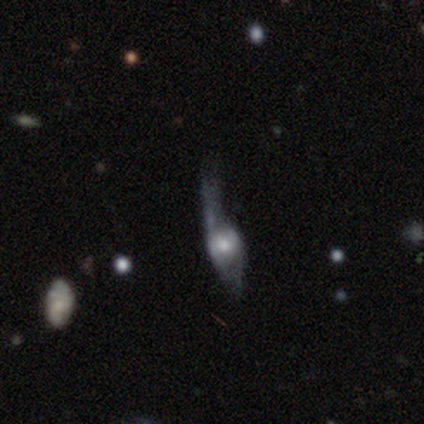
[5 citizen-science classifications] smooth_or_featured: featured or disk (p=0.60) [alt: smooth p=0.20]
disk_edge_on: no (p=0.67) [alt: yes p=0.33]
bar: weak (p=0.50) [tied with: no p=0.50]
has_spiral_arms: yes (p=1.00)
spiral_winding: loose (p=1.00)
spiral_arm_count: 1 (p=0.50) [tied with: 2 p=0.50]
bulge_size: large (p=0.50) [tied with: moderate p=0.50]
merging: major disturbance (p=0.75) [alt: minor disturbance p=0.25]